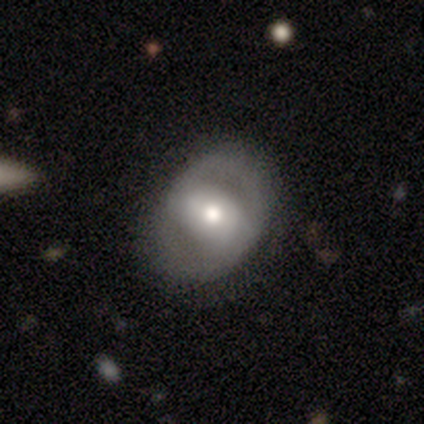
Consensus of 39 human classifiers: smooth-or-featured: featured or disk: 69% | smooth: 31% | star or artifact: 0%
  disk-edge-on: no: 96% | yes: 4%
    bar: strong: 42% | weak: 31% | no: 27%
    has-spiral-arms: no: 69% | yes: 31%
    bulge-size: moderate: 62% | large: 27% | small: 12% | dominant: 0% | none: 0%
  merging: none: 77% | minor disturbance: 15% | major disturbance: 8% | merger: 0%